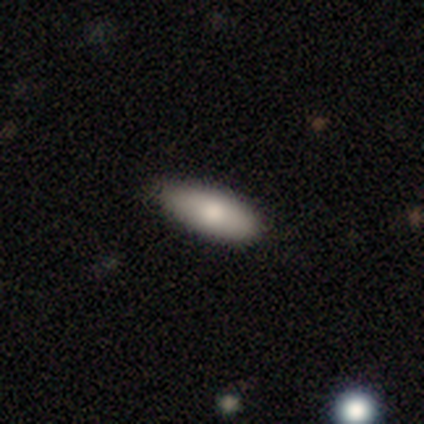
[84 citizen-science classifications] smooth-or-featured: smooth: 81% | star or artifact: 12% | featured or disk: 7%
  how-rounded: in between: 69% | cigar-shaped: 31% | round: 0%
  merging: none: 77% | minor disturbance: 22% | major disturbance: 1% | merger: 0%